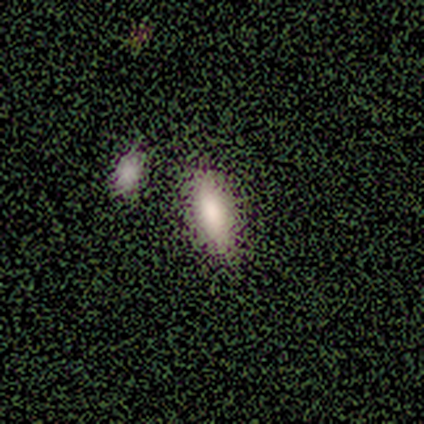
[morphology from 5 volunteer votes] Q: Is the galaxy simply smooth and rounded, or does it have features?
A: smooth — 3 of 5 (60%).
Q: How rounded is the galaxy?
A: in between — 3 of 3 (100%).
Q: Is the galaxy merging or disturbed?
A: none — 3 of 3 (100%).